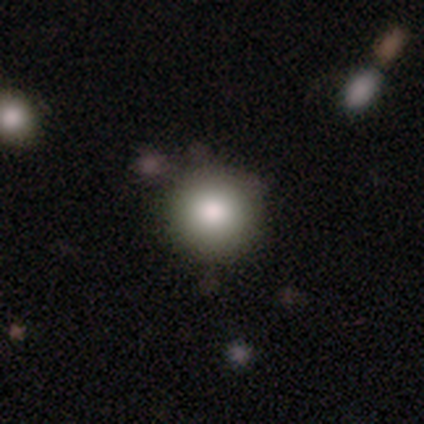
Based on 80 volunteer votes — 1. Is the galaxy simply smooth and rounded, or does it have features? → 89% smooth, 8% star or artifact, 4% featured or disk.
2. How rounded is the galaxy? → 96% round, 4% in between, 0% cigar-shaped.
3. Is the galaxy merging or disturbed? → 77% none, 12% minor disturbance, 5% major disturbance, 5% merger.